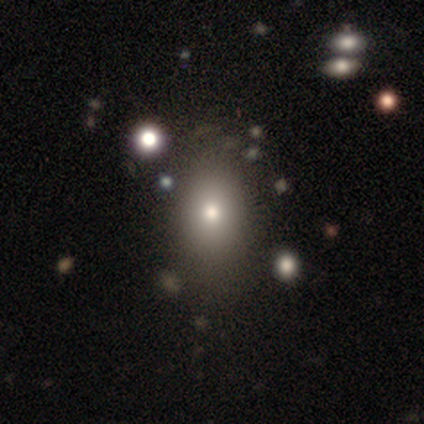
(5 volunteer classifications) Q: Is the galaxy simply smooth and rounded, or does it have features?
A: smooth — 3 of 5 (60%).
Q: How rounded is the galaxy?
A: in between — 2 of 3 (67%).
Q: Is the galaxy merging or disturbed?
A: none — 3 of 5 (60%).